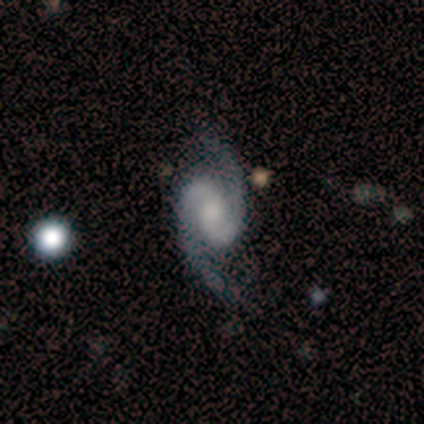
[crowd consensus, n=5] smooth_or_featured: featured or disk (p=0.80) [alt: star or artifact p=0.20]
disk_edge_on: no (p=1.00)
bar: weak (p=0.50) [tied with: no p=0.50]
has_spiral_arms: yes (p=1.00)
spiral_winding: tight (p=0.50) [alt: medium p=0.25]
spiral_arm_count: 2 (p=1.00)
bulge_size: moderate (p=0.75) [alt: small p=0.25]
merging: none (p=0.75) [alt: minor disturbance p=0.25]